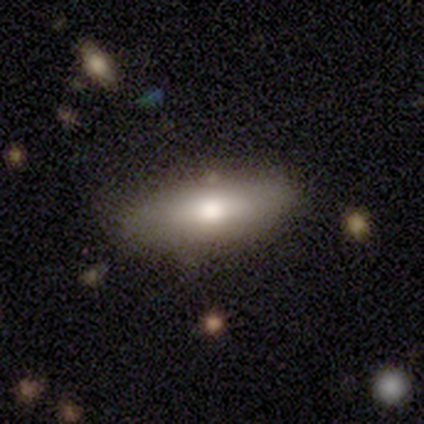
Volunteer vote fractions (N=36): Overall: smooth (64%; featured or disk 33%). How rounded: in between (61%; cigar-shaped 39%). Merging: none (80%).